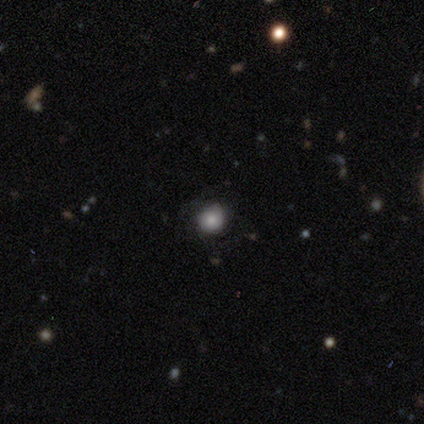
smooth 75%, star or artifact 25%, featured or disk 0%. Down the decision tree: how rounded — round (100%); merging — none (100%).